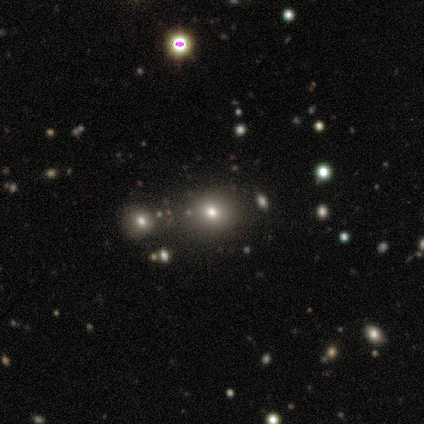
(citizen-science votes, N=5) Volunteers were most divided on "how rounded": round: 75%, in between: 25%, cigar-shaped: 0%. More confident: smooth or featured — smooth (80%); merging — none (75%).